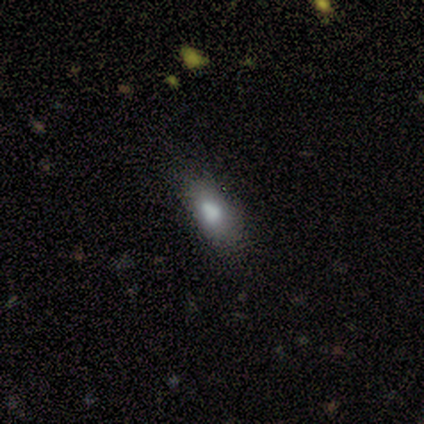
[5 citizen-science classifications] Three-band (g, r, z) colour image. It shows a smooth galaxy with no disk features (80%) that is in between round and cigar-shaped (100%). Merging: none (100%).